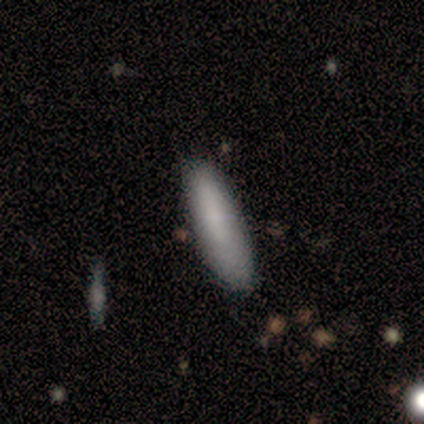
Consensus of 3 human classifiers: A smooth galaxy with no disk features (67%) that is cigar-shaped (100%).

Vote fractions:
- Smooth or featured? smooth: 67% / featured or disk: 33% / star or artifact: 0%
- How rounded? cigar-shaped: 100% / round: 0% / in between: 0%
- Merging? none: 100% / minor disturbance: 0% / major disturbance: 0% / merger: 0%